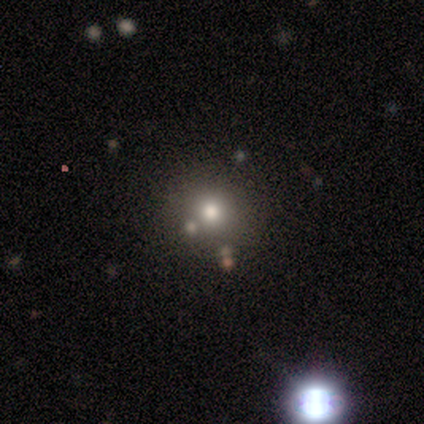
Smooth or featured? smooth (62%)
How rounded? round (100%)
Merging? none (80%)